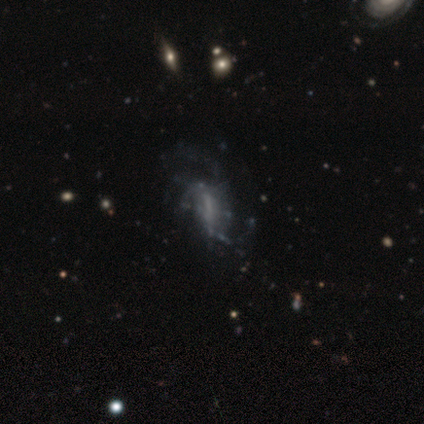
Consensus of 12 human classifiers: Morphology: type=featured or disk (83%); edge-on=no (100%); bar=weak (50%); spiral arms=yes (70%); winding=loose (57%); arm count=1 (29%, tied with 2 and can't tell); bulge=none (70%); merging=major disturbance (58%).